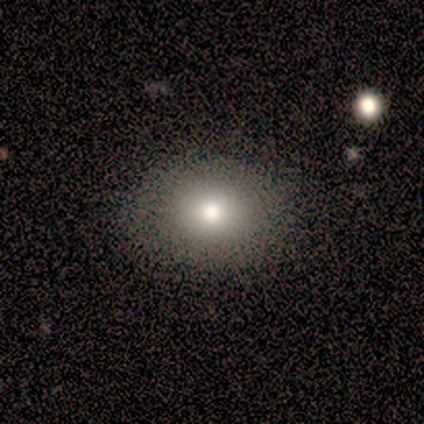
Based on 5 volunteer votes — Volunteers were most divided on "smooth or featured": smooth: 80%, star or artifact: 20%, featured or disk: 0%. More confident: how rounded — in between (100%); merging — none (100%).